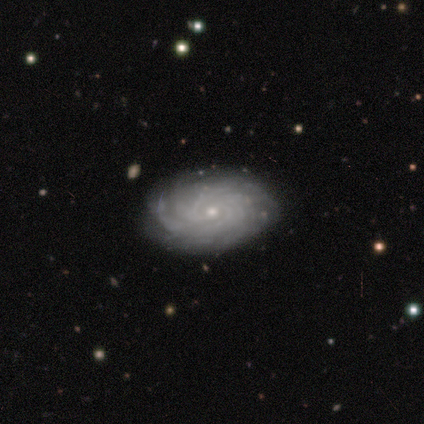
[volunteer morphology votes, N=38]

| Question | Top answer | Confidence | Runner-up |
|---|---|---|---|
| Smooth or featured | featured or disk | 79% | smooth (13%) |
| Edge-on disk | no | 93% | yes (7%) |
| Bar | no | 79% | weak (18%) |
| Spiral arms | yes | 100% | — |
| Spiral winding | tight | 82% | medium (18%) |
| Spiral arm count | more than 4 | 43% | tied: can't tell (43%) |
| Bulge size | small | 75% | moderate (21%) |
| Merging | none | 94% | minor disturbance (6%) |